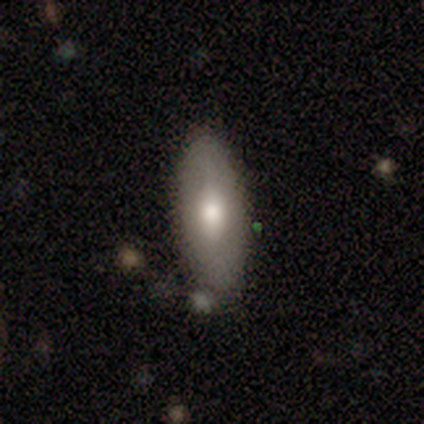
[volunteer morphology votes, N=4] Q: Smooth or featured?
A: smooth (75%); runner-up: featured or disk (25%)
Q: How rounded?
A: in between (100%)
Q: Merging?
A: none (75%); runner-up: major disturbance (25%)